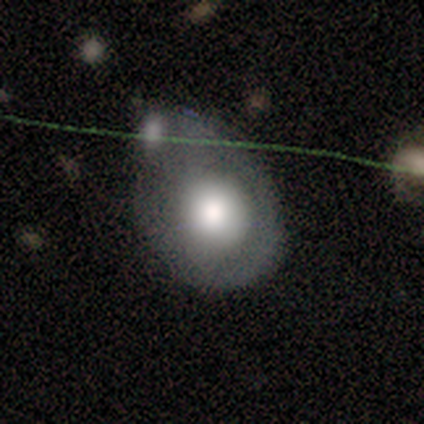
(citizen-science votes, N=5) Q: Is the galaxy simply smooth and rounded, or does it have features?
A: smooth — 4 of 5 (80%).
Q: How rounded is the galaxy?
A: round — 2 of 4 (50%, tied with in between).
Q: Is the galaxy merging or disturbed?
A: minor disturbance — 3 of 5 (60%).